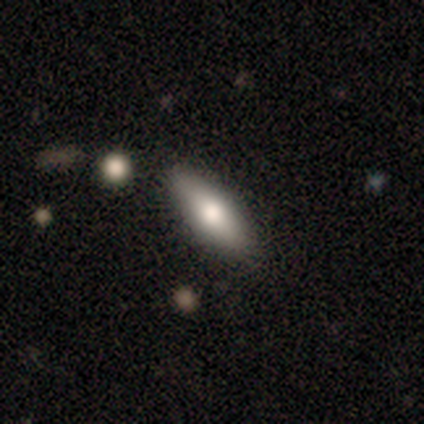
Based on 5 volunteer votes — Smooth or featured? smooth (80%)
How rounded? in between (75%)
Merging? none (80%)